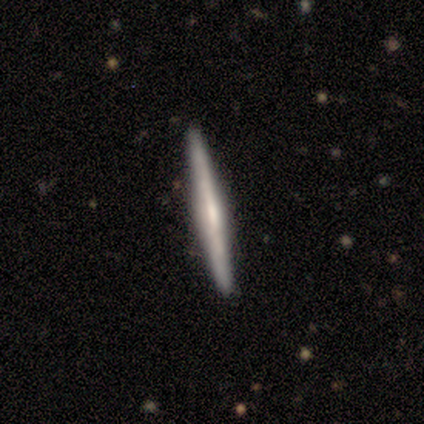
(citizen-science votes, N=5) Overall: smooth (60%; featured or disk 40%). How rounded: cigar-shaped (100%). Merging: none (100%).